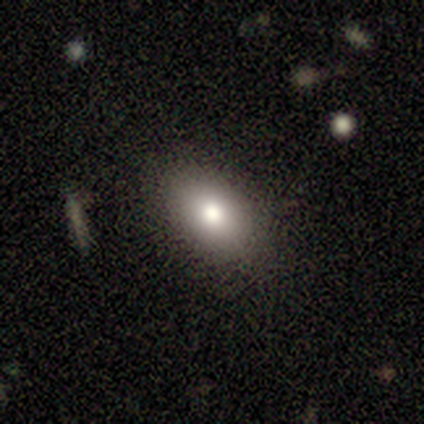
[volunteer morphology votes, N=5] Smooth or featured? 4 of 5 (80%) said smooth. How rounded? 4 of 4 (100%) said in between. Merging? 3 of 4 (75%) said none.